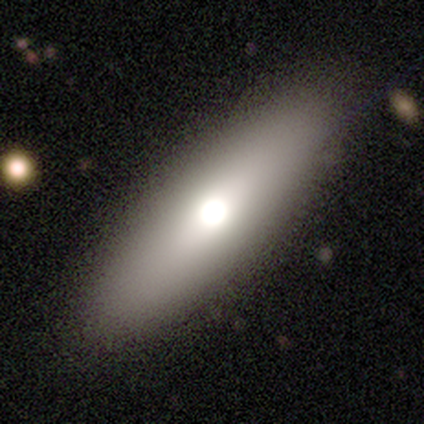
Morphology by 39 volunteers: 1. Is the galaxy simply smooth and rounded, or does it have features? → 72% smooth, 23% featured or disk, 5% star or artifact.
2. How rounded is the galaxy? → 61% in between, 39% cigar-shaped, 0% round.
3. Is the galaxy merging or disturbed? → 70% none, 5% minor disturbance, 3% major disturbance, 0% merger.